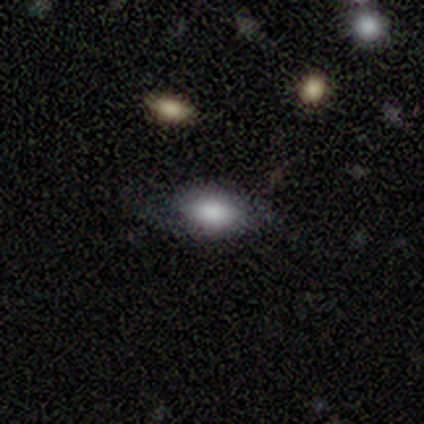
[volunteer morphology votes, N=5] smooth-or-featured: smooth: 60% | featured or disk: 40% | star or artifact: 0%
  how-rounded: in between: 67% | cigar-shaped: 33% | round: 0%
  merging: none: 80% | major disturbance: 20% | minor disturbance: 0% | merger: 0%